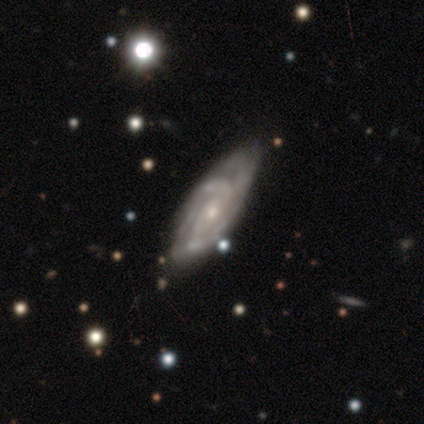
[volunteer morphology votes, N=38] A featured or disk galaxy (100%) with no bar (63%), 2 (34%) tight (66%) spiral arms (100%) and a small central bulge (51%).

Vote fractions:
- Smooth or featured? featured or disk: 100% / smooth: 0% / star or artifact: 0%
- Edge-on disk? no: 92% / yes: 8%
- Bar? no: 63% / weak: 26% / strong: 11%
- Spiral arms? yes: 100% / no: 0%
- Spiral winding? tight: 66% / medium: 29% / loose: 6%
- Spiral arm count? 2: 34% / can't tell: 26% / 3: 17% / 4: 14% / more than 4: 9% / 1: 0%
- Bulge size? small: 51% / moderate: 43% / dominant: 3% / large: 3% / none: 0%
- Merging? none: 37% / minor disturbance: 13% / merger: 11% / major disturbance: 3%